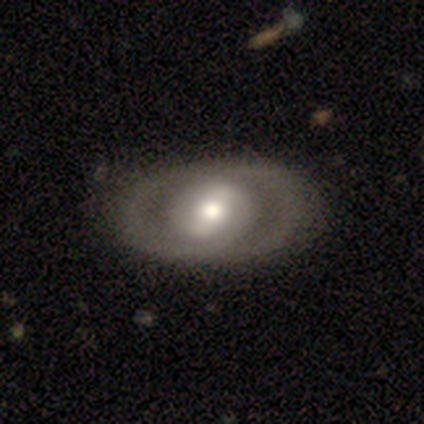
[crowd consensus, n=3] A smooth galaxy with no disk features (67%) that is in between round and cigar-shaped (100%).

Vote fractions:
- Smooth or featured? smooth: 67% / featured or disk: 33% / star or artifact: 0%
- How rounded? in between: 100% / round: 0% / cigar-shaped: 0%
- Merging? none: 100% / minor disturbance: 0% / major disturbance: 0% / merger: 0%